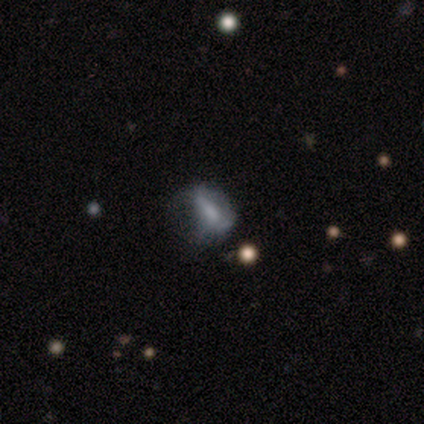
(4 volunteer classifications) smooth_or_featured: smooth (p=0.75) [alt: featured or disk p=0.25]
how_rounded: in between (p=0.67) [alt: cigar-shaped p=0.33]
merging: major disturbance (p=0.75) [alt: minor disturbance p=0.25]